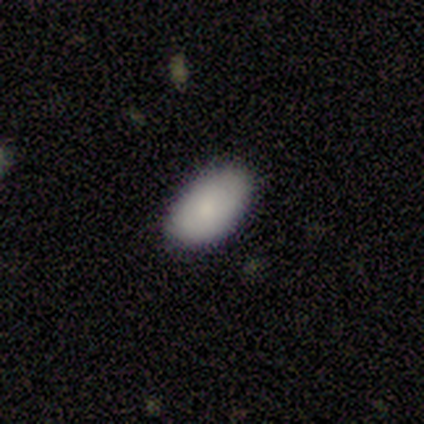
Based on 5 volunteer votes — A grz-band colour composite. It shows a smooth galaxy with no disk features (100%) that is in between round and cigar-shaped (100%). Merging: none (80%).